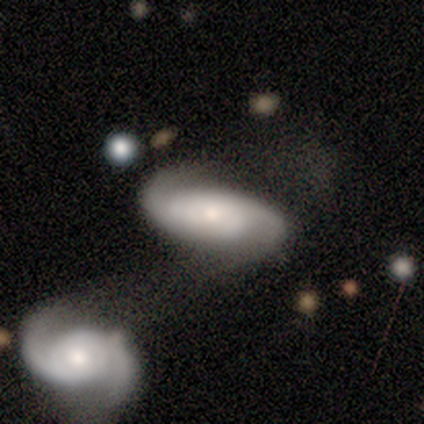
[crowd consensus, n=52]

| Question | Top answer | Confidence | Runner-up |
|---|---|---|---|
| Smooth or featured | featured or disk | 87% | smooth (10%) |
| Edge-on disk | no | 100% | — |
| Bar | no | 82% | strong (9%) |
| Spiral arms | yes | 96% | no (4%) |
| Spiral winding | medium | 40% | tight (30%) |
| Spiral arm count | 2 | 81% | can't tell (19%) |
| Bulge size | moderate | 42% | tied: small (42%) |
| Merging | merger | 64% | none (16%) |